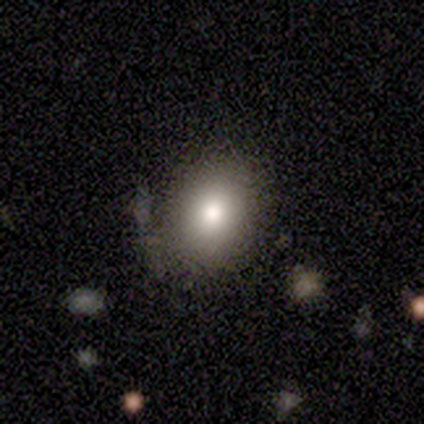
A smooth galaxy with no disk features (100%) that is in between round and cigar-shaped (60%).

Vote fractions:
- Smooth or featured? smooth: 100% / featured or disk: 0% / star or artifact: 0%
- How rounded? in between: 60% / round: 40% / cigar-shaped: 0%
- Merging? none: 60% / minor disturbance: 40% / major disturbance: 0% / merger: 0%